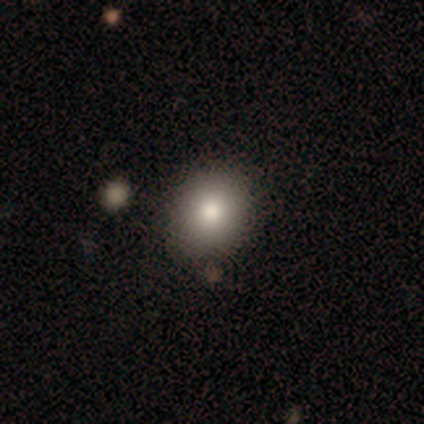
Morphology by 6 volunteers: Volunteers were most divided on "smooth or featured": smooth: 67%, featured or disk: 17%, star or artifact: 17%. More confident: merging — none (80%); how rounded — in between (75%).